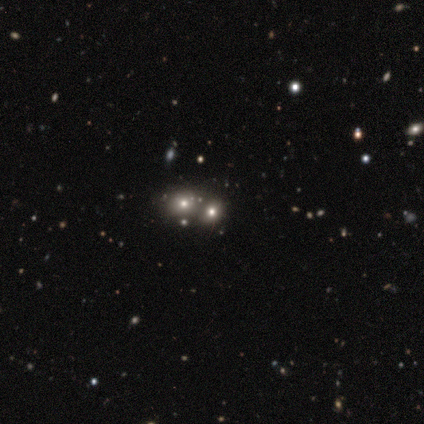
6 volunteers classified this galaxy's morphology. Smooth or featured?
  - smooth: 50% * (tied)
  - star or artifact: 50% * (tied)
  - featured or disk: 0%
How rounded?
  - round: 67% *
  - in between: 33%
  - cigar-shaped: 0%
Merging?
  - merger: 67% *
  - none: 33%
  - minor disturbance: 0%
  - major disturbance: 0%